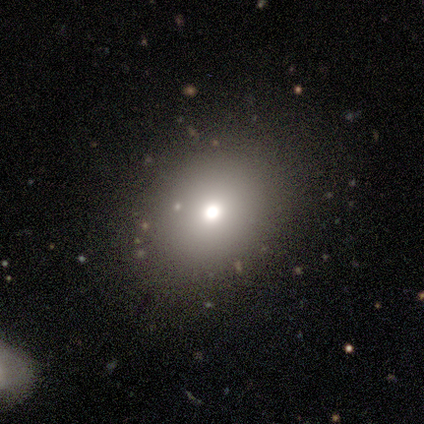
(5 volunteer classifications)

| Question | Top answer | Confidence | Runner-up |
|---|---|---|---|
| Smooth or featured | smooth | 60% | star or artifact (40%) |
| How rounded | round | 67% | in between (33%) |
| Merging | none | 100% | — |